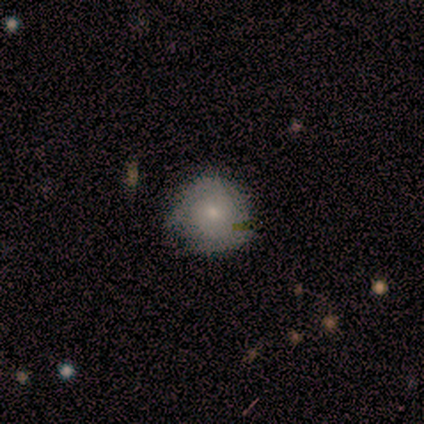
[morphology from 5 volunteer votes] A smooth galaxy with no disk features (80%) that is round (100%).

Vote fractions:
- Smooth or featured? smooth: 80% / featured or disk: 20% / star or artifact: 0%
- How rounded? round: 100% / in between: 0% / cigar-shaped: 0%
- Merging? none: 80% / minor disturbance: 20% / major disturbance: 0% / merger: 0%